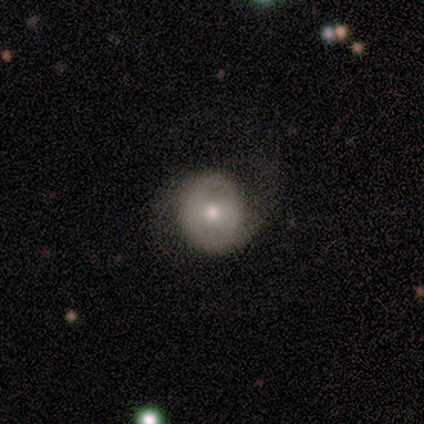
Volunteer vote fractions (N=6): Smooth or featured?
  - featured or disk: 50% *
  - smooth: 33%
  - star or artifact: 17%
Edge-on disk?
  - no: 67% *
  - yes: 33%
Bar?
  - weak: 50% * (tied)
  - no: 50% * (tied)
  - strong: 0%
Spiral arms?
  - yes: 100% *
  - no: 0%
Spiral winding?
  - medium: 100% *
  - tight: 0%
  - loose: 0%
Spiral arm count?
  - 2: 100% *
  - 1: 0%
  - 3: 0%
  - 4: 0%
  - more than 4: 0%
  - can't tell: 0%
Bulge size?
  - moderate: 50% * (tied)
  - small: 50% * (tied)
  - dominant: 0%
  - large: 0%
  - none: 0%
Merging?
  - none: 80% *
  - minor disturbance: 20%
  - major disturbance: 0%
  - merger: 0%